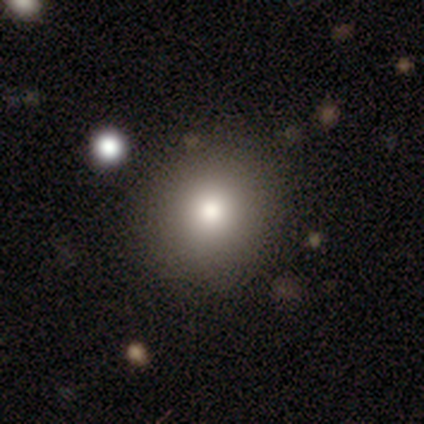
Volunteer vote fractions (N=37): Smooth or featured: smooth — 86% (star or artifact — 11%)
How rounded: round — 88% (in between — 12%)
Merging: none — 88% (minor disturbance — 12%)